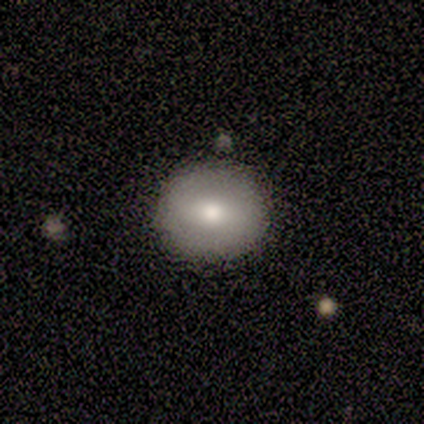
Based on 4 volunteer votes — Smooth or featured?
  - smooth: 75% *
  - featured or disk: 25%
  - star or artifact: 0%
How rounded?
  - round: 100% *
  - in between: 0%
  - cigar-shaped: 0%
Merging?
  - none: 100% *
  - minor disturbance: 0%
  - major disturbance: 0%
  - merger: 0%